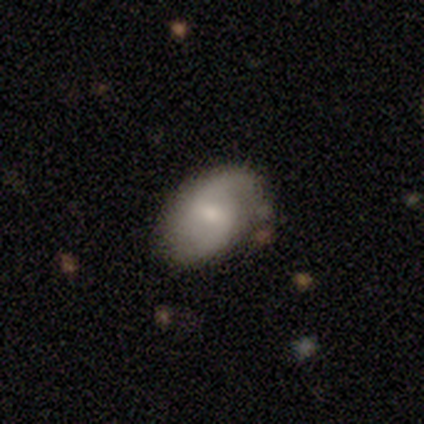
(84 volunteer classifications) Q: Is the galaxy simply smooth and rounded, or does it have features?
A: featured or disk — 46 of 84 (55%).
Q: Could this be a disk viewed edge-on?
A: no — 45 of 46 (98%).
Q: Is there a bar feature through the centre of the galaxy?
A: weak — 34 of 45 (76%).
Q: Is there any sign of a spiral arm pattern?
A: yes — 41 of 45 (91%).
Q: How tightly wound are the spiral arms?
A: loose — 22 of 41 (54%).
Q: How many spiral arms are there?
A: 2 — 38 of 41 (93%).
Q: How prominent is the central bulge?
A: small — 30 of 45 (67%).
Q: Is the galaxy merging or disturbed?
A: none — 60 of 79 (76%).